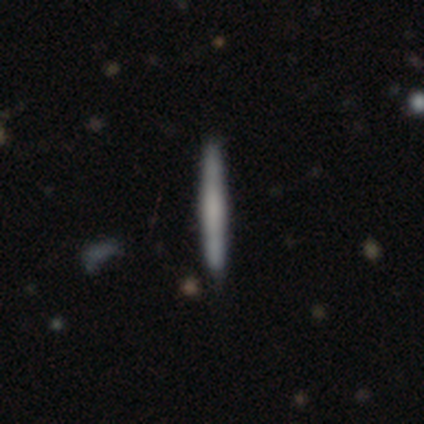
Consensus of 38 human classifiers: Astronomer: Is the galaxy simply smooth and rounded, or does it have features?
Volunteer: smooth — 53% (runner-up: featured or disk, 45%).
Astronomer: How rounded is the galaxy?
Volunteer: cigar-shaped — 100%.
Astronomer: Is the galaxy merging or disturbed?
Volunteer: none — 95%.